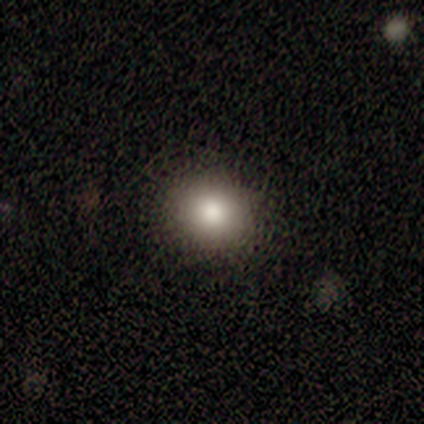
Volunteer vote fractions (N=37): Smooth or featured?
  - smooth: 81% *
  - star or artifact: 11%
  - featured or disk: 8%
How rounded?
  - round: 77% *
  - in between: 20%
  - cigar-shaped: 3%
Merging?
  - none: 48% *
  - merger: 9%
  - minor disturbance: 3%
  - major disturbance: 0%